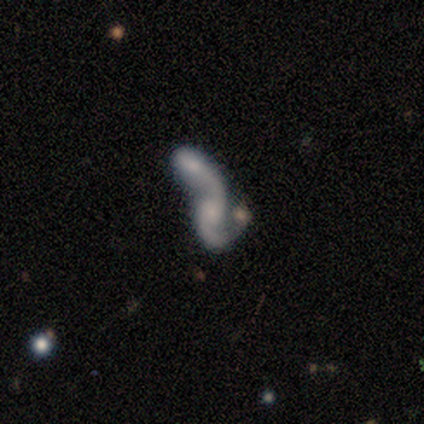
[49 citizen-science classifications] Smooth or featured? featured or disk (76%)
Edge-on disk? no (100%)
Bar? no (78%)
Spiral arms? yes (84%)
Spiral winding? loose (84%)
Spiral arm count? 2 (77%)
Bulge size? moderate (35%)
Merging? merger (87%)